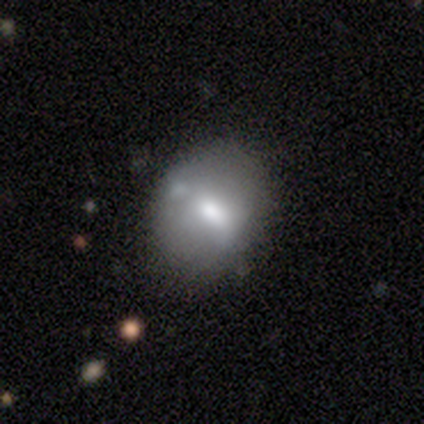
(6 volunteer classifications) Volunteers were most divided on "edge-on disk" (2-way tie): yes: 50%, no: 50%. More confident: edge-on bulge — rounded (100%); merging — none (83%); smooth or featured — featured or disk (67%).